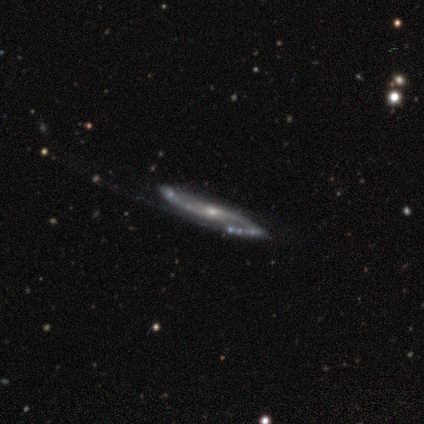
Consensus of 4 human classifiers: Q: Smooth or featured?
A: featured or disk (75%); runner-up: smooth (25%)
Q: Edge-on disk?
A: no (67%); runner-up: yes (33%)
Q: Bar?
A: no (100%)
Q: Spiral arms?
A: yes (100%)
Q: Spiral winding?
A: medium (50%); tied with: loose (50%)
Q: Spiral arm count?
A: 2 (100%)
Q: Bulge size?
A: moderate (50%); tied with: small (50%)
Q: Merging?
A: none (75%); runner-up: major disturbance (25%)